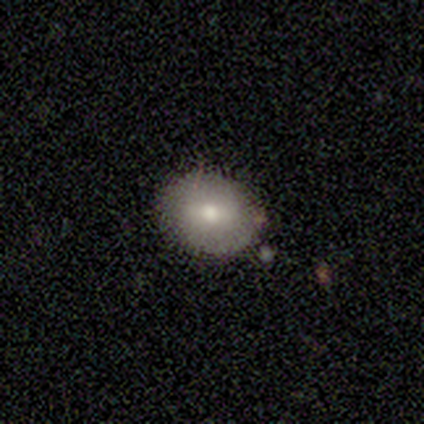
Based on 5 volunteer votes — Q: Smooth or featured?
A: smooth (60%); runner-up: featured or disk (40%)
Q: How rounded?
A: round (67%); runner-up: in between (33%)
Q: Merging?
A: none (80%); runner-up: minor disturbance (20%)